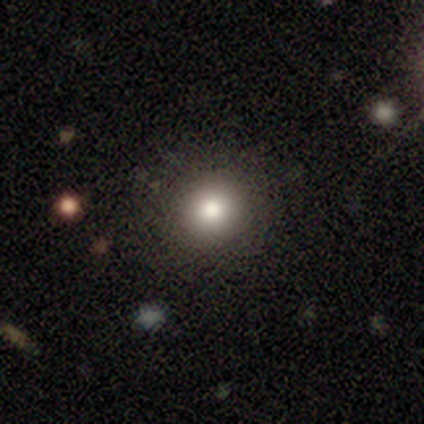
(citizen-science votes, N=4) Smooth or featured? smooth (50%)
How rounded? round (100%)
Merging? none (100%)